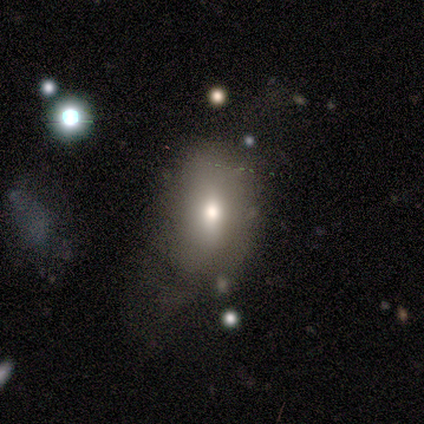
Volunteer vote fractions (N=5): Smooth or featured?
  - smooth: 80% *
  - featured or disk: 20%
  - star or artifact: 0%
How rounded?
  - in between: 75% *
  - round: 25%
  - cigar-shaped: 0%
Merging?
  - none: 60% *
  - major disturbance: 20%
  - merger: 20%
  - minor disturbance: 0%